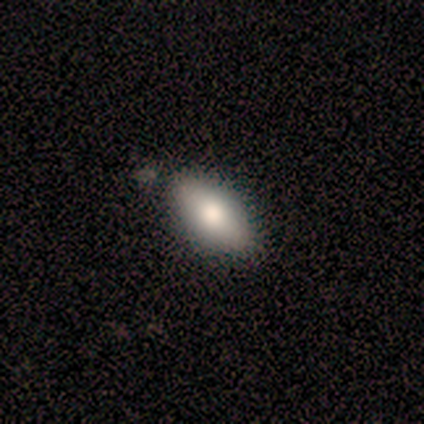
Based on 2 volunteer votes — A smooth galaxy with no disk features (50%, tied with featured or disk) that is in between round and cigar-shaped (100%). Merging: none (100%).